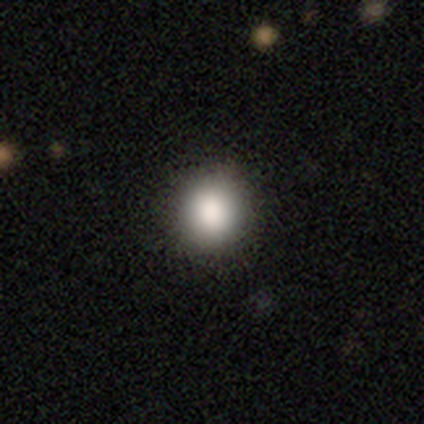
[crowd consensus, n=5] Volunteers were most divided on "how rounded": round: 80%, in between: 20%, cigar-shaped: 0%. More confident: smooth or featured — smooth (100%); merging — none (80%).